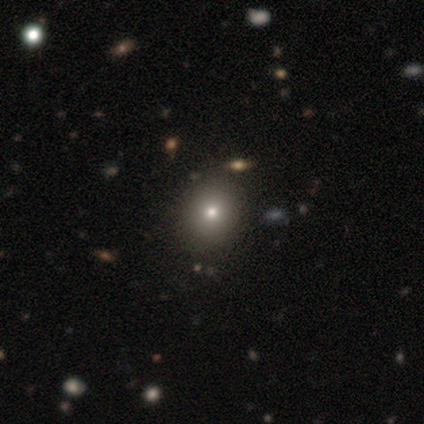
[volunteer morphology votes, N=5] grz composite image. It shows a smooth galaxy with no disk features (100%) that is round (60%). Merging: none (100%).